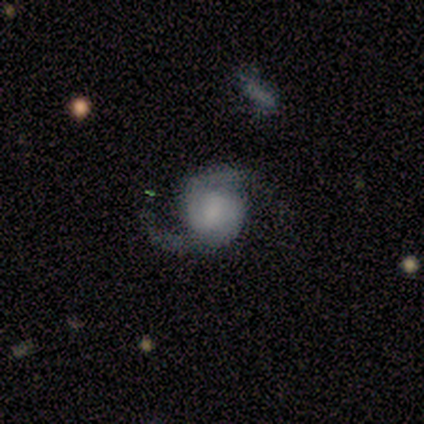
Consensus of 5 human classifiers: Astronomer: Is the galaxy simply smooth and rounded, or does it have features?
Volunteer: featured or disk — 100%.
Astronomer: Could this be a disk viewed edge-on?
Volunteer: no — 100%.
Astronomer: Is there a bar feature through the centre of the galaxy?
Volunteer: weak — 60%.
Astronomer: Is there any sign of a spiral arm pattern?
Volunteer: yes — 100%.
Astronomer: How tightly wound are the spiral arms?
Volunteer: medium — 80%.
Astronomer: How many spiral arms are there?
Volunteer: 2 — 100%.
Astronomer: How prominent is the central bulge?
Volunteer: small — 40% (runner-up: large, 20%).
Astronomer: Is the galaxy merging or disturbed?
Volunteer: none — 80%.